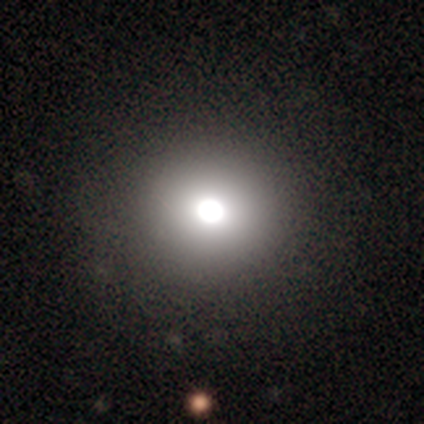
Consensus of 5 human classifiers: Smooth or featured: smooth — 100%
How rounded: round — 100%
Merging: none — 100%